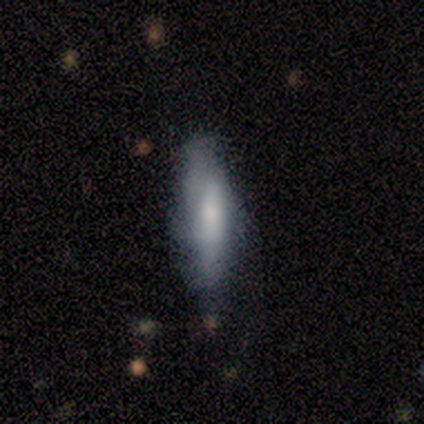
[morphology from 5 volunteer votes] This appears to be a featured or disk galaxy (60%) with a weak bar (50%, tied with no), 1 (100%) tight (100%) spiral arms (50%, tied with no) and a dominant central bulge (50%, tied with large). Merging: minor disturbance (75%).